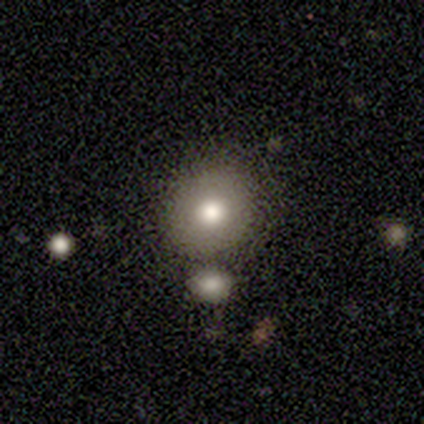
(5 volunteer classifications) Smooth or featured?
  - smooth: 80% *
  - star or artifact: 20%
  - featured or disk: 0%
How rounded?
  - round: 75% *
  - in between: 25%
  - cigar-shaped: 0%
Merging?
  - none: 75% *
  - merger: 25%
  - minor disturbance: 0%
  - major disturbance: 0%